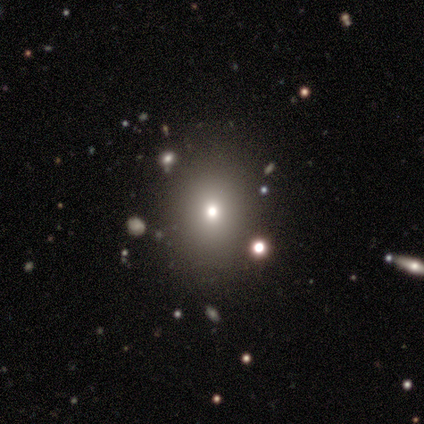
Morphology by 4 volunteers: Q: Smooth or featured?
A: smooth (100%)
Q: How rounded?
A: round (75%); runner-up: in between (25%)
Q: Merging?
A: none (100%)